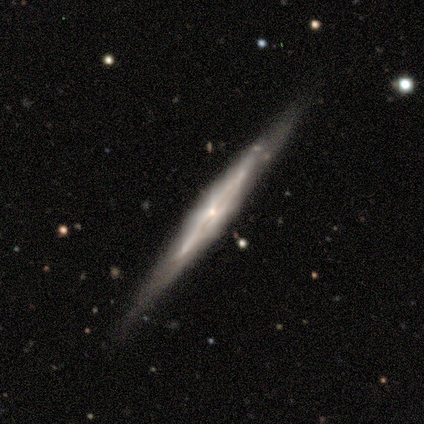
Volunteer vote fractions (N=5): smooth-or-featured: featured or disk: 80% | smooth: 20% | star or artifact: 0%
  disk-edge-on: yes: 75% | no: 25%
    edge-on-bulge: boxy: 33% (tied) | none: 33% (tied) | rounded: 33% (tied)
  merging: none: 100% | minor disturbance: 0% | major disturbance: 0% | merger: 0%